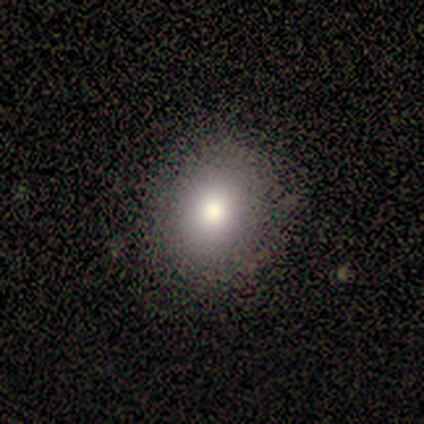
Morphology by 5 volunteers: smooth-or-featured: smooth: 80% | featured or disk: 20% | star or artifact: 0%
  how-rounded: round: 100% | in between: 0% | cigar-shaped: 0%
  merging: none: 80% | major disturbance: 20% | minor disturbance: 0% | merger: 0%